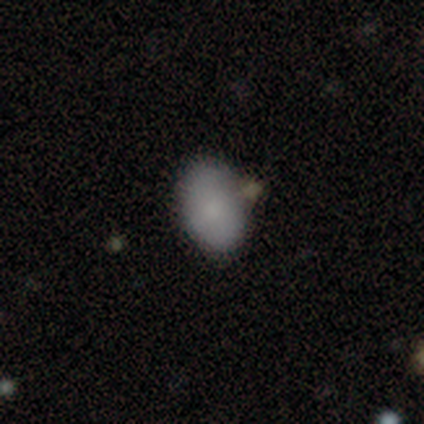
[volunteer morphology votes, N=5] A smooth galaxy with no disk features (80%) that is in between round and cigar-shaped (100%). Merging: none (80%).